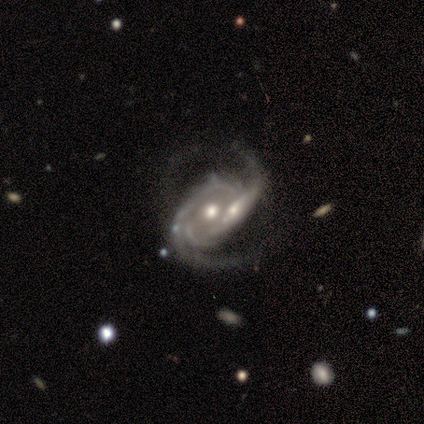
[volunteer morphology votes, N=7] Overall: featured or disk (100%). Edge-on disk: no (100%). Bar: no (71%). Spiral arms: yes (100%). Spiral arm count: 2 (57%; can't tell 29%). Spiral winding: medium (86%). Bulge size: moderate (57%; small 43%). Merging: none (57%; merger 29%).